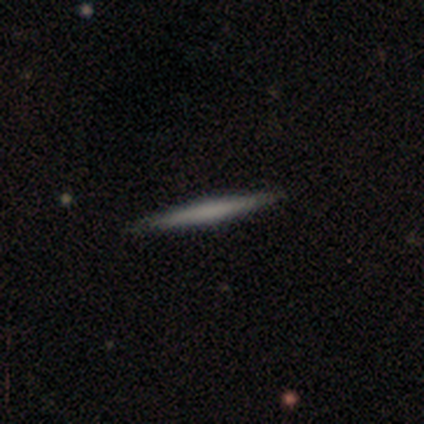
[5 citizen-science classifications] smooth 80%, featured or disk 20%, star or artifact 0%. Down the decision tree: how rounded — cigar-shaped (75%); merging — none (100%).